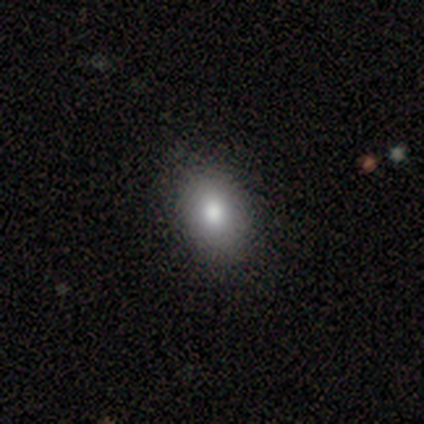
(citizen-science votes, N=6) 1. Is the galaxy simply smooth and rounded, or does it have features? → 83% smooth, 17% featured or disk, 0% star or artifact.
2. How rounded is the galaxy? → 100% in between, 0% round, 0% cigar-shaped.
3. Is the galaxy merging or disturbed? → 100% none, 0% minor disturbance, 0% major disturbance, 0% merger.